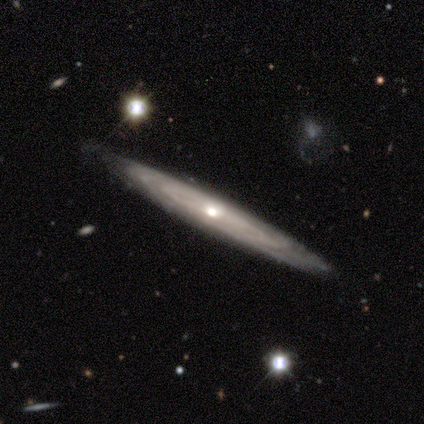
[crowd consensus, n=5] This is clearly a featured or disk galaxy (80%). It is likely not viewed edge-on (75%). Bar: clearly no (100%). Spiral arm pattern: clearly yes (100%). Spiral arm count: clearly can't tell (100%). Spiral winding: marginally tight (33%, tied with medium and loose). Central bulge: likely small (67%). Merging: clearly none (100%).